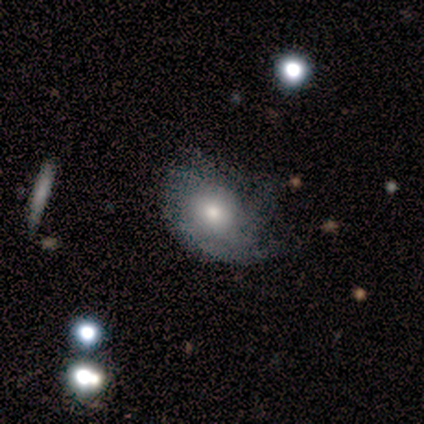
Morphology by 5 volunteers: This is likely a smooth galaxy (60%). How rounded: likely in between (67%). Merging: possibly none (50%, tied with major disturbance).